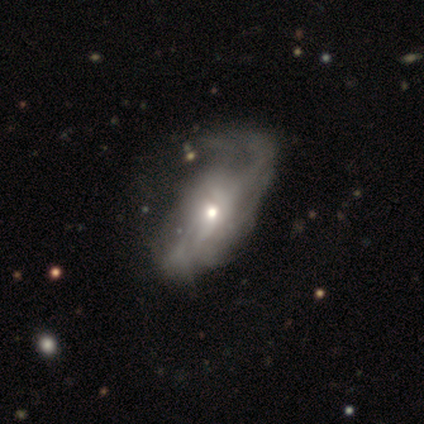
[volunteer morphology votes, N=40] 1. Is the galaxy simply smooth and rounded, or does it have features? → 80% featured or disk, 18% smooth, 2% star or artifact.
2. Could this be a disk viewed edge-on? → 94% no, 6% yes.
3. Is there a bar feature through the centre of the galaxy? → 87% no, 7% strong, 7% weak.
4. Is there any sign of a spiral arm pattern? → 60% yes, 40% no.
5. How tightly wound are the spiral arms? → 56% loose, 28% tight, 17% medium.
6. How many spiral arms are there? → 67% can't tell, 11% 1, 11% 2, 6% 3, 6% more than 4, 0% 4.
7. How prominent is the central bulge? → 50% small, 37% moderate, 7% large, 7% none, 0% dominant.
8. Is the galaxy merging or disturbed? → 44% major disturbance, 26% minor disturbance, 15% none, 3% merger.